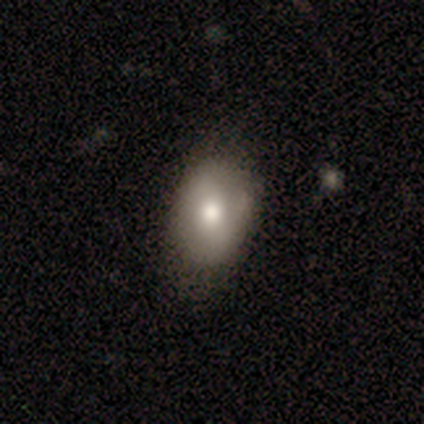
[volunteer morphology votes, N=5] smooth 60%, featured or disk 40%, star or artifact 0%. Down the decision tree: how rounded — in between (67%); merging — none (80%).